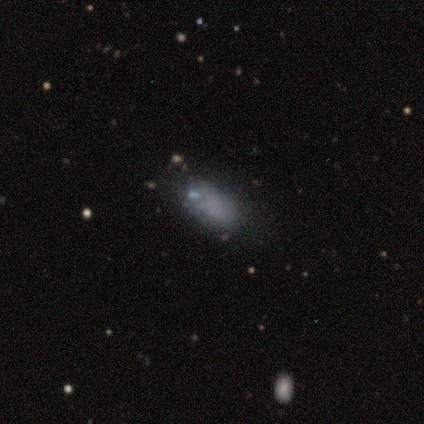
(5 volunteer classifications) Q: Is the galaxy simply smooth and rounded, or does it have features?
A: smooth — 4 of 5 (80%).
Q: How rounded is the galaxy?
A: in between — 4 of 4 (100%).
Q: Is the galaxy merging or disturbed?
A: none — 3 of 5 (60%).